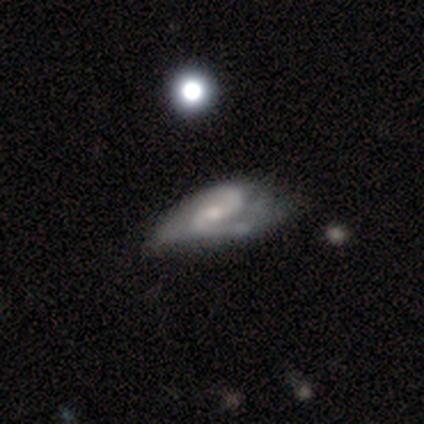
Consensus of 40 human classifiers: featured or disk 90%, smooth 5%, star or artifact 5%. Down the decision tree: edge-on disk — no (94%); bar — weak (62%); spiral arms — yes (94%); spiral arm count — 2 (91%); spiral winding — medium (47%); bulge size — small (59%); merging — minor disturbance (34%).